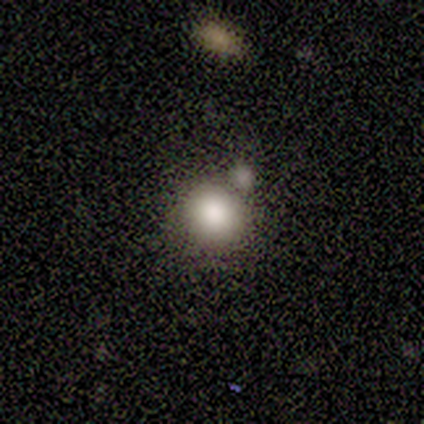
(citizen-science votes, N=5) smooth_or_featured: smooth (p=0.80) [alt: featured or disk p=0.20]
how_rounded: round (p=0.75) [alt: in between p=0.25]
merging: merger (p=0.60) [alt: none p=0.20]